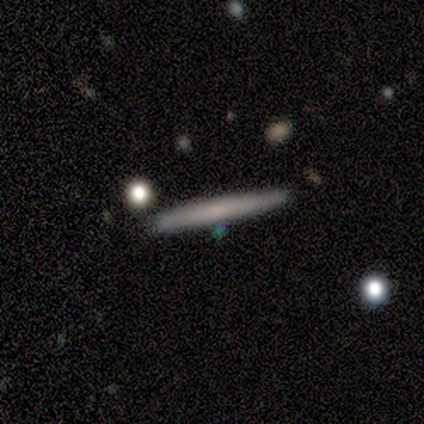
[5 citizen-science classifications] Overall: smooth (80%). How rounded: cigar-shaped (100%). Merging: none (80%).